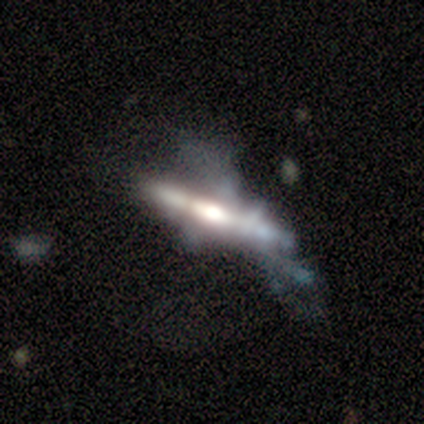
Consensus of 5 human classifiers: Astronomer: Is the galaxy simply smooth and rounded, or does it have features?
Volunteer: featured or disk — 100%.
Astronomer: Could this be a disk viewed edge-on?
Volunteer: yes — 100%.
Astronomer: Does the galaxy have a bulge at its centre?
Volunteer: rounded — 60%.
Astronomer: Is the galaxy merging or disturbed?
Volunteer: merger — 40% (runner-up: none, 20%).